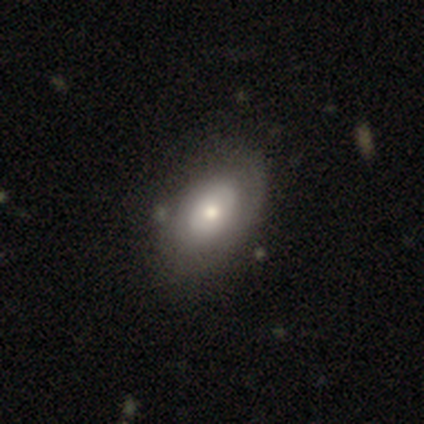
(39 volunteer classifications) Smooth or featured: smooth — 59% (featured or disk — 36%)
How rounded: in between — 83% (round — 13%)
Merging: none — 41% (merger — 14%)